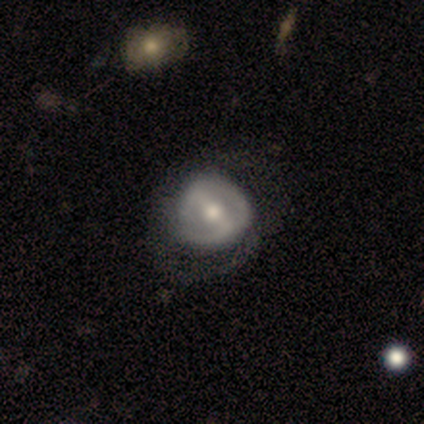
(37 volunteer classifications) Smooth or featured?
  - featured or disk: 57% *
  - smooth: 38%
  - star or artifact: 5%
Edge-on disk?
  - no: 95% *
  - yes: 5%
Bar?
  - strong: 65% *
  - weak: 35%
  - no: 0%
Spiral arms?
  - no: 65% *
  - yes: 35%
Bulge size?
  - moderate: 55% *
  - small: 30%
  - large: 15%
  - dominant: 0%
  - none: 0%
Merging?
  - none: 40% *
  - major disturbance: 37%
  - minor disturbance: 23%
  - merger: 0%